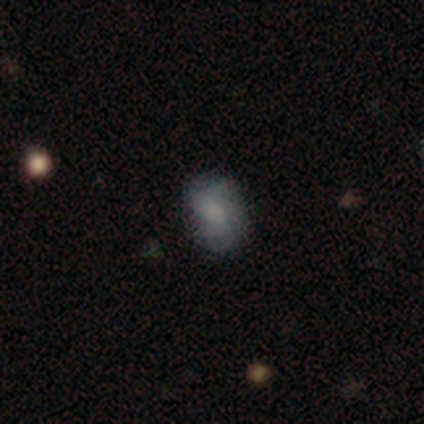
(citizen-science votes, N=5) smooth 100%, featured or disk 0%, star or artifact 0%. Down the decision tree: how rounded — in between (80%); merging — none (60%).